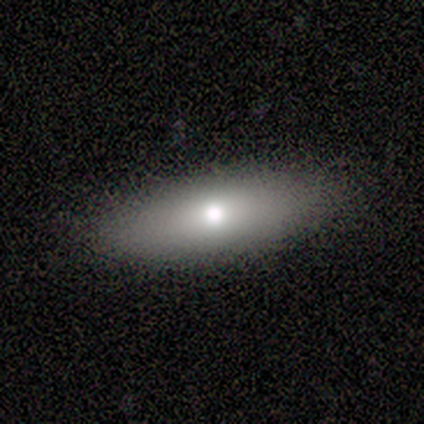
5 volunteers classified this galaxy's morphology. Smooth or featured?
  - smooth: 60% *
  - featured or disk: 40%
  - star or artifact: 0%
How rounded?
  - in between: 67% *
  - cigar-shaped: 33%
  - round: 0%
Merging?
  - none: 80% *
  - major disturbance: 20%
  - minor disturbance: 0%
  - merger: 0%